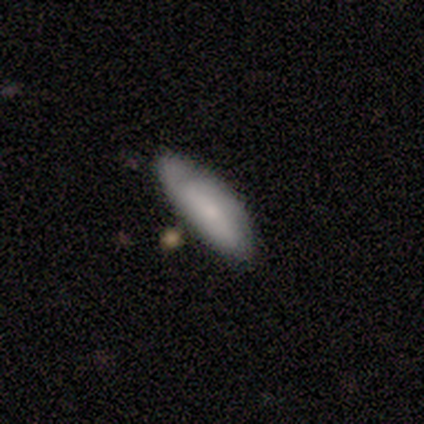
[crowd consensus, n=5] smooth 60%, featured or disk 40%, star or artifact 0%. Down the decision tree: how rounded — in between (67%); merging — none (100%).